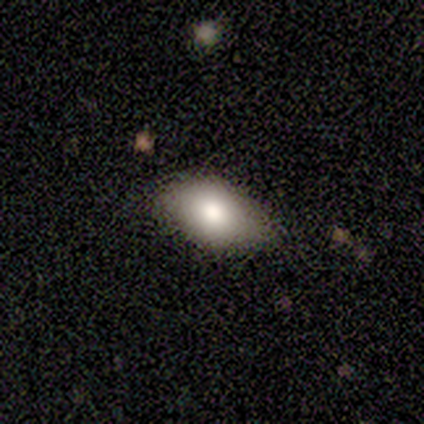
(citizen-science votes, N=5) Smooth or featured?
  - smooth: 100% *
  - featured or disk: 0%
  - star or artifact: 0%
How rounded?
  - in between: 80% *
  - cigar-shaped: 20%
  - round: 0%
Merging?
  - none: 40% * (tied)
  - minor disturbance: 40% * (tied)
  - major disturbance: 20%
  - merger: 0%